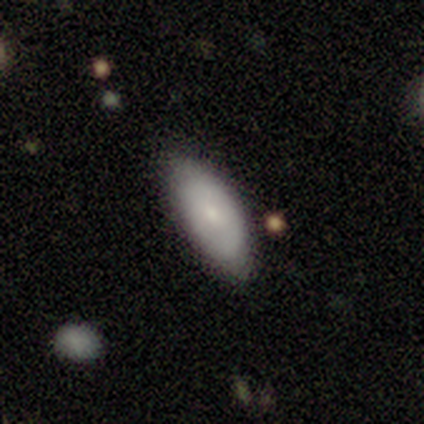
Q: Smooth or featured?
A: smooth (74%); runner-up: featured or disk (18%)
Q: How rounded?
A: in between (89%); runner-up: cigar-shaped (11%)
Q: Merging?
A: none (86%); runner-up: minor disturbance (11%)